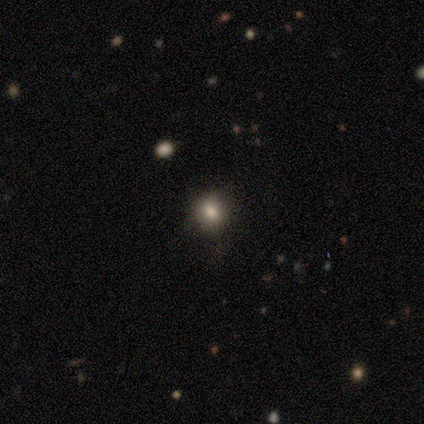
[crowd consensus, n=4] smooth_or_featured: smooth (p=0.75) [alt: star or artifact p=0.25]
how_rounded: round (p=0.67) [alt: in between p=0.33]
merging: none (p=0.67) [alt: major disturbance p=0.33]